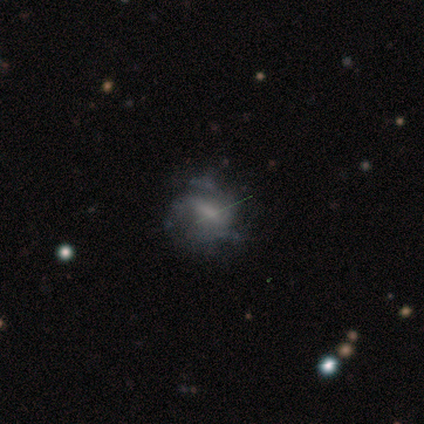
Morphology: type=featured or disk (67%); edge-on=no (100%); bar=weak (75%); spiral arms=yes (100%); winding=medium (75%); arm count=1 (25%, tied with 2, 3 and can't tell); bulge=moderate (50%); merging=minor disturbance (50%).